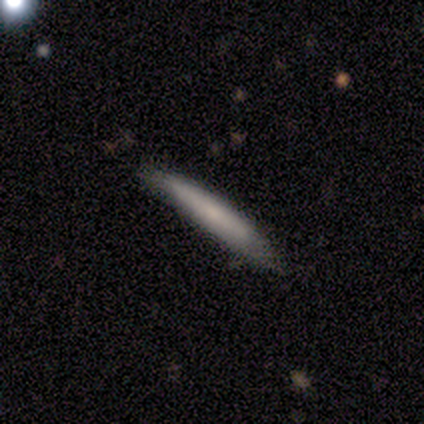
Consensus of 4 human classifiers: A smooth galaxy with no disk features (50%, tied with featured or disk) that is cigar-shaped (100%).

Vote fractions:
- Smooth or featured? smooth: 50% (tied) / featured or disk: 50% (tied) / star or artifact: 0%
- How rounded? cigar-shaped: 100% / round: 0% / in between: 0%
- Merging? none: 100% / minor disturbance: 0% / major disturbance: 0% / merger: 0%